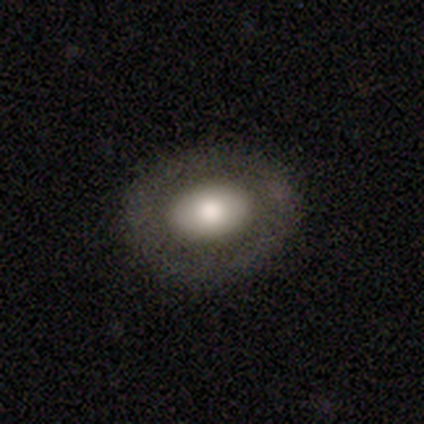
smooth-or-featured: smooth: 62% | featured or disk: 31% | star or artifact: 8%
  how-rounded: in between: 67% | round: 29% | cigar-shaped: 4%
  merging: none: 89% | major disturbance: 6% | minor disturbance: 3% | merger: 3%